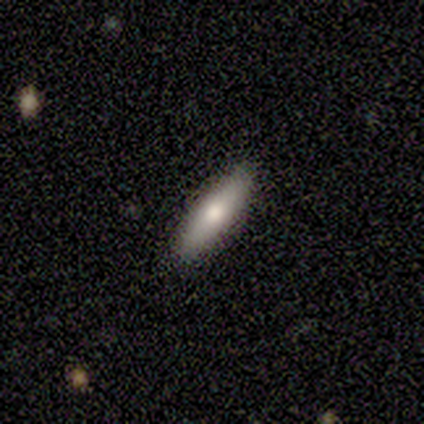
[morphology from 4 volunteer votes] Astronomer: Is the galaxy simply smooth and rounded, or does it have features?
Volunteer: smooth — 100%.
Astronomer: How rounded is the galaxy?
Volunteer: in between — 75%.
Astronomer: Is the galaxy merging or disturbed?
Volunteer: none — 100%.